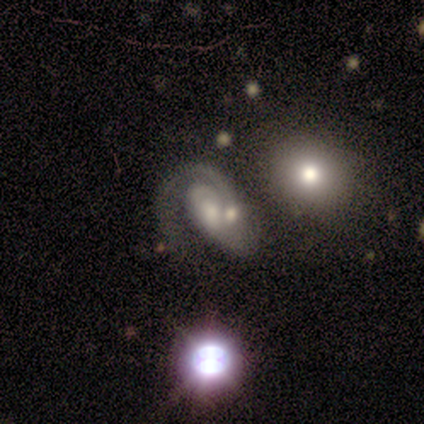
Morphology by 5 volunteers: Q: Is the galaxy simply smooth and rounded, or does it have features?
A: featured or disk — 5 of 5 (100%).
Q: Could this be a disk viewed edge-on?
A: no — 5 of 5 (100%).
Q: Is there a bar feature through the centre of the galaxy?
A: no — 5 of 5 (100%).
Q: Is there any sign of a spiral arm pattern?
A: yes — 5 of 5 (100%).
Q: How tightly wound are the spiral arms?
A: tight — 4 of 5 (80%).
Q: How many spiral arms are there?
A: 1 — 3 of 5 (60%).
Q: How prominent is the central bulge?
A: moderate — 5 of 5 (100%).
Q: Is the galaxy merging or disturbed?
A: merger — 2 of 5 (40%).